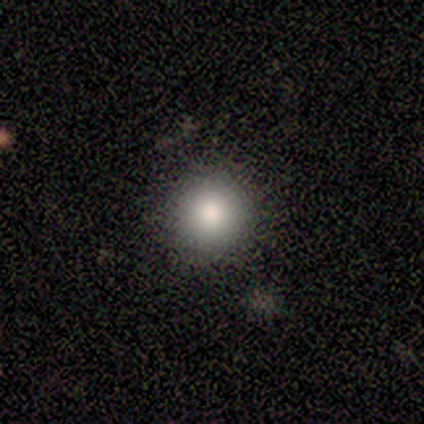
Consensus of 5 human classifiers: A smooth galaxy with no disk features (100%) that is round (100%). Merging: none (100%).